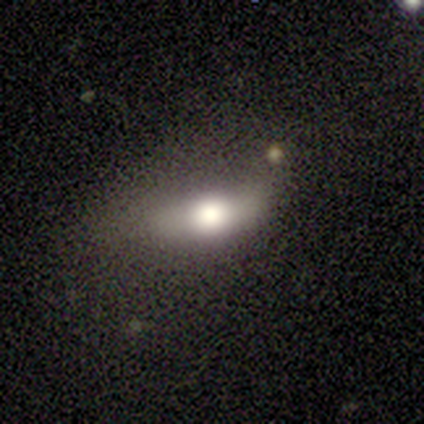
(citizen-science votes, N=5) Overall: smooth (80%). How rounded: in between (50%; round 25%). Merging: major disturbance (60%; minor disturbance 40%).